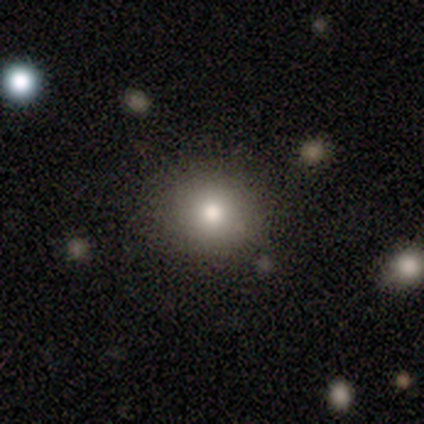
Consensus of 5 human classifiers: Overall: smooth (40%, tied with star or artifact). How rounded: round (100%). Merging: none (100%).